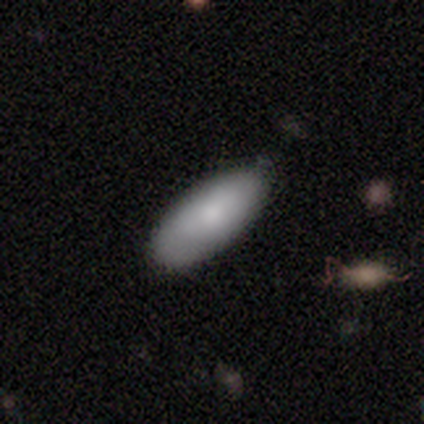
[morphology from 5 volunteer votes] Volunteers were most divided on "smooth or featured": smooth: 60%, featured or disk: 40%, star or artifact: 0%. More confident: how rounded — in between (100%); merging — none (100%).